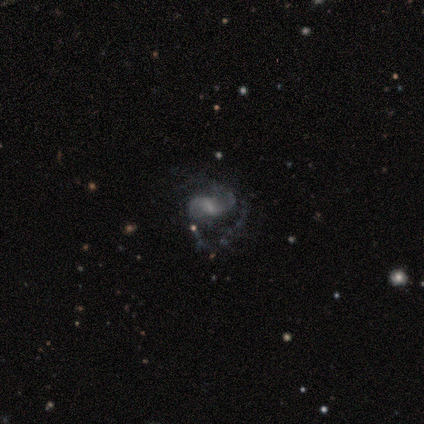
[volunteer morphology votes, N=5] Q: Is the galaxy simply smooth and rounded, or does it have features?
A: featured or disk — 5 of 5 (100%).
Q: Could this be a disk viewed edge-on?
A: no — 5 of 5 (100%).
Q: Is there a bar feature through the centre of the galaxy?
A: weak — 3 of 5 (60%).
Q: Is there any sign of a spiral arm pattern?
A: yes — 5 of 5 (100%).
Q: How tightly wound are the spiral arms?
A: medium — 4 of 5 (80%).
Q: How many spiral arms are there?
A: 2 — 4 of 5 (80%).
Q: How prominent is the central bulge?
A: moderate — 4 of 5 (80%).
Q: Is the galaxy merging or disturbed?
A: major disturbance — 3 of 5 (60%).